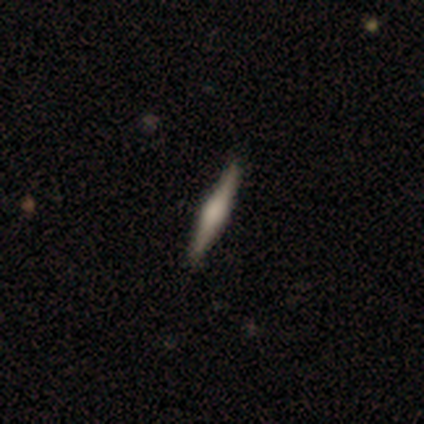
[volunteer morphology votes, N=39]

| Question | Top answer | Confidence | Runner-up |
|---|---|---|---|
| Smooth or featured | featured or disk | 77% | smooth (23%) |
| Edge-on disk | yes | 100% | — |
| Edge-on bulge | rounded | 87% | boxy (13%) |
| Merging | none | 74% | minor disturbance (10%) |